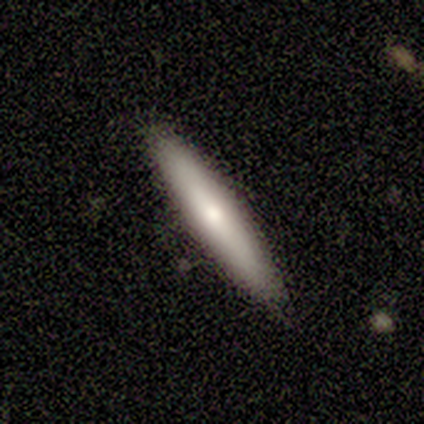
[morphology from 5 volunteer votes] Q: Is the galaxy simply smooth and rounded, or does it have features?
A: featured or disk — 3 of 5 (60%).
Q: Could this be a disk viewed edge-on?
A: yes — 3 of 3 (100%).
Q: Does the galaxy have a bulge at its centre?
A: rounded — 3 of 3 (100%).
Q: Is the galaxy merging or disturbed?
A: none — 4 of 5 (80%).